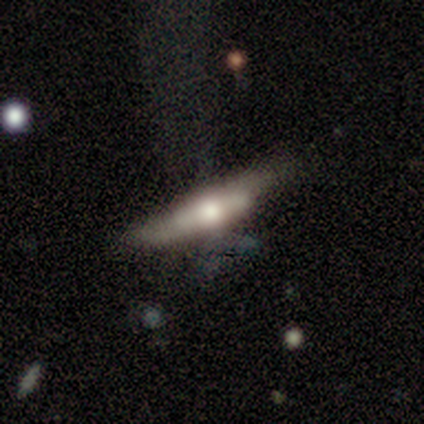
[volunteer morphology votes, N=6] smooth_or_featured: featured or disk (p=1.00)
disk_edge_on: yes (p=0.67) [alt: no p=0.33]
edge_on_bulge: rounded (p=0.75) [alt: none p=0.25]
merging: none (p=0.50) [alt: minor disturbance p=0.33]